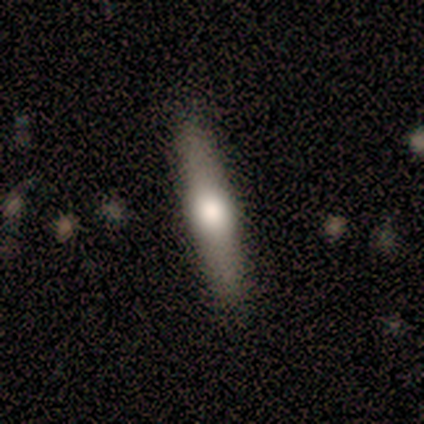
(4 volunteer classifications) A smooth galaxy with no disk features (50%, tied with featured or disk) that is round (50%, tied with cigar-shaped). Merging: none (75%).